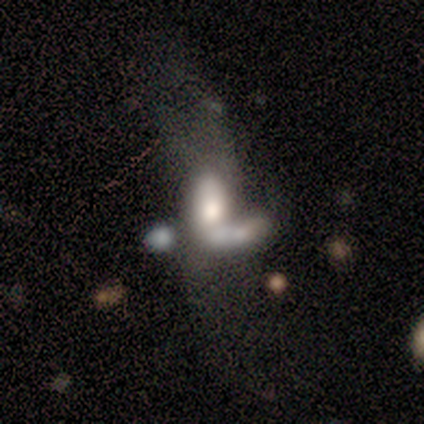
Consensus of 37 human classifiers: Smooth or featured: smooth — 57% (featured or disk — 38%)
How rounded: in between — 86% (cigar-shaped — 10%)
Merging: merger — 80% (none — 11%)